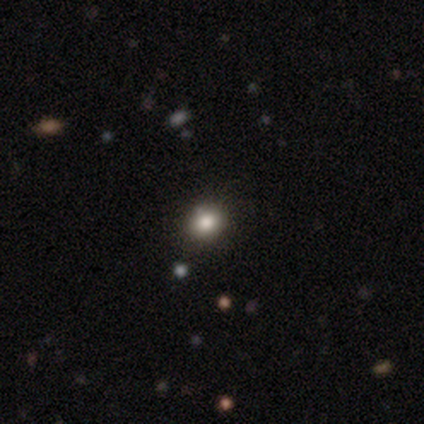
A star or artifact, not a galaxy (67%).